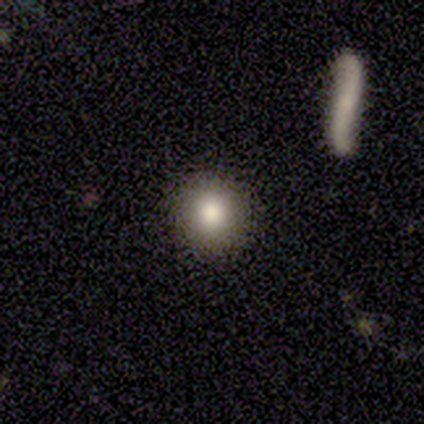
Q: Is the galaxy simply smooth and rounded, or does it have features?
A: smooth — 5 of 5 (100%).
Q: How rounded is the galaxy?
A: round — 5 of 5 (100%).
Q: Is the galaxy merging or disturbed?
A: minor disturbance — 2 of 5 (40%, tied with merger).